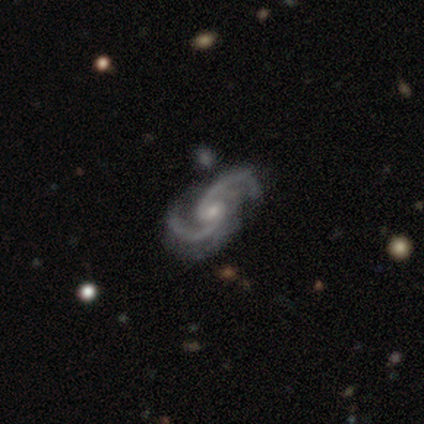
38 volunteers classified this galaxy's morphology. Smooth or featured? featured or disk (92%)
Edge-on disk? no (100%)
Bar? no (60%)
Spiral arms? yes (100%)
Spiral winding? medium (66%)
Spiral arm count? 2 (100%)
Bulge size? small (60%)
Merging? none (34%)